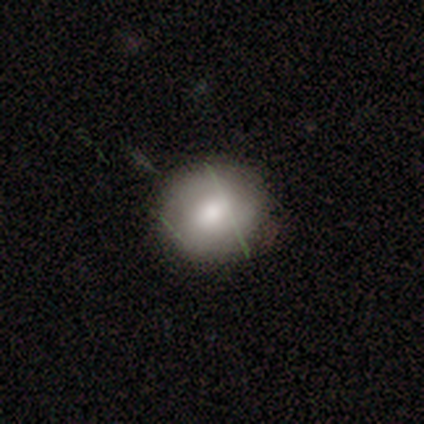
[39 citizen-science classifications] A smooth galaxy with no disk features (59%) that is round (83%).

Vote fractions:
- Smooth or featured? smooth: 59% / featured or disk: 31% / star or artifact: 10%
- How rounded? round: 83% / in between: 17% / cigar-shaped: 0%
- Merging? none: 83% / minor disturbance: 11% / major disturbance: 6% / merger: 0%